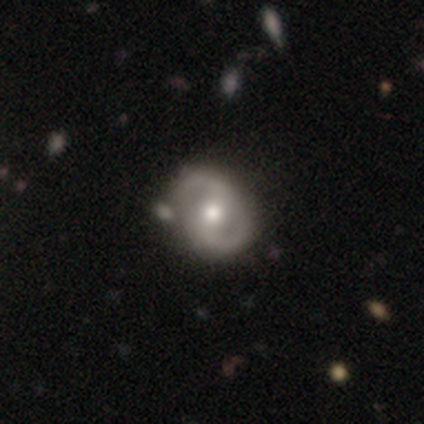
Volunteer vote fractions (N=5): smooth-or-featured: featured or disk: 80% | star or artifact: 20% | smooth: 0%
  disk-edge-on: no: 100% | yes: 0%
    bar: no: 50% | strong: 25% | weak: 25%
    has-spiral-arms: yes: 75% | no: 25%
      spiral-winding: loose: 67% | medium: 33% | tight: 0%
      spiral-arm-count: 2: 100% | 1: 0% | 3: 0% | 4: 0% | more than 4: 0% | can't tell: 0%
    bulge-size: moderate: 75% | large: 25% | dominant: 0% | small: 0% | none: 0%
  merging: none: 50% (tied) | minor disturbance: 50% (tied) | major disturbance: 0% | merger: 0%